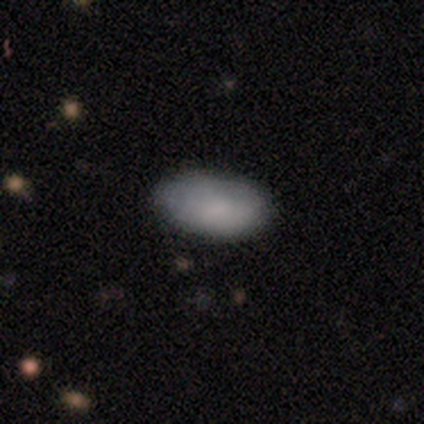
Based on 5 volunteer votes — smooth_or_featured: smooth (p=0.80) [alt: featured or disk p=0.20]
how_rounded: in between (p=1.00)
merging: none (p=1.00)